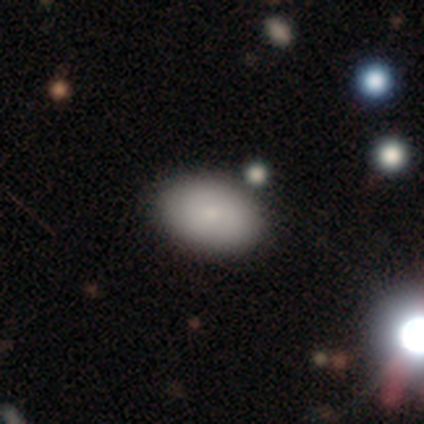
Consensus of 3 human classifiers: Smooth or featured?
  - smooth: 67% *
  - star or artifact: 33%
  - featured or disk: 0%
How rounded?
  - in between: 100% *
  - round: 0%
  - cigar-shaped: 0%
Merging?
  - none: 100% *
  - minor disturbance: 0%
  - major disturbance: 0%
  - merger: 0%